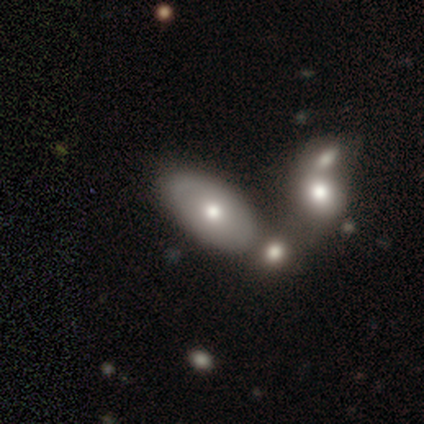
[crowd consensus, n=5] Smooth or featured? smooth (60%)
How rounded? in between (100%)
Merging? none (60%)